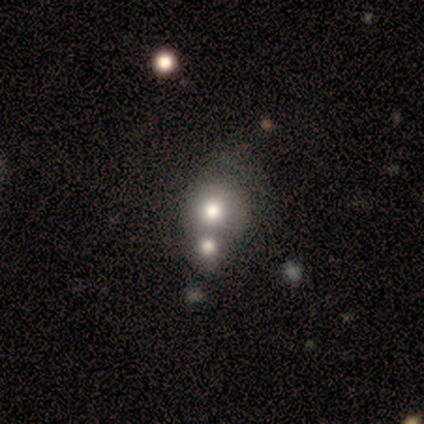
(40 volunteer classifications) A smooth galaxy with no disk features (75%) that is round (87%). Merging: merger (53%).